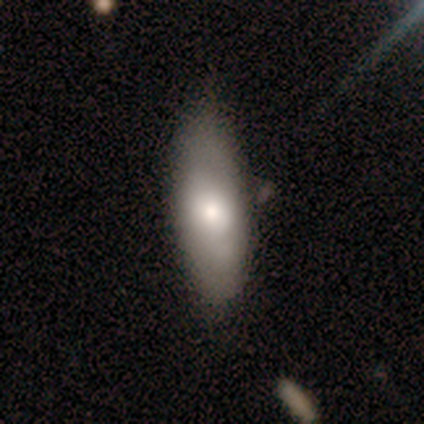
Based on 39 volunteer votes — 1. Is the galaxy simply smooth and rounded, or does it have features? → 69% smooth, 31% featured or disk, 0% star or artifact.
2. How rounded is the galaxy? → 67% in between, 33% cigar-shaped, 0% round.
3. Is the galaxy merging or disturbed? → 46% none, 15% minor disturbance, 8% merger, 3% major disturbance.